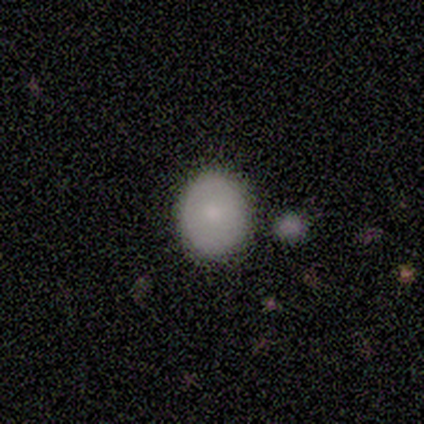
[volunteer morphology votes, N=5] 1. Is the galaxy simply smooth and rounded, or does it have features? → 100% smooth, 0% featured or disk, 0% star or artifact.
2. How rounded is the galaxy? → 80% in between, 20% round, 0% cigar-shaped.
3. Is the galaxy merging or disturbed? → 80% none, 20% merger, 0% minor disturbance, 0% major disturbance.